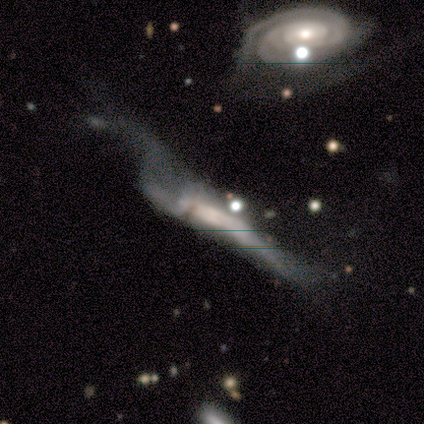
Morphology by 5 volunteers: A featured or disk galaxy (80%) viewed edge-on (100%) with a boxy central bulge (100%).

Vote fractions:
- Smooth or featured? featured or disk: 80% / smooth: 20% / star or artifact: 0%
- Edge-on disk? yes: 100% / no: 0%
- Edge-on bulge? boxy: 100% / none: 0% / rounded: 0%
- Merging? major disturbance: 60% / none: 20% / merger: 20% / minor disturbance: 0%